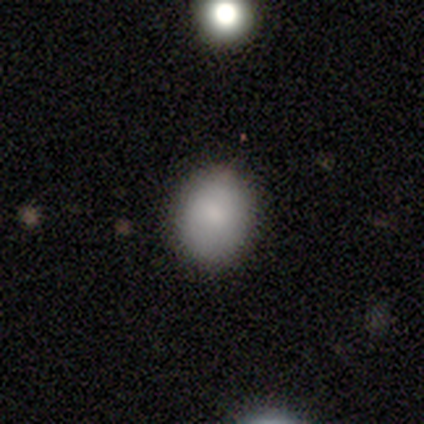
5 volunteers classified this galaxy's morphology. smooth_or_featured: smooth (p=0.80) [alt: featured or disk p=0.20]
how_rounded: round (p=0.50) [tied with: in between p=0.50]
merging: none (p=0.80) [alt: minor disturbance p=0.20]